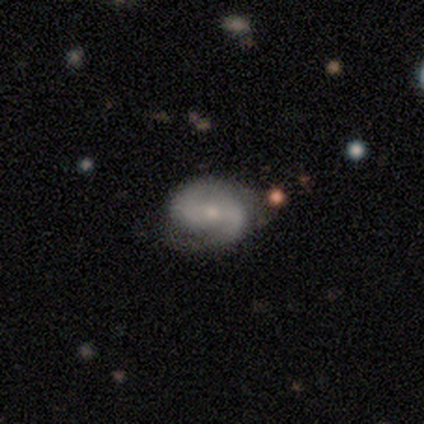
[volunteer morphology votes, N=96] A featured or disk galaxy (75%) with a weak bar (46%), 2 (83%) tight (39%) spiral arms (96%) and a small central bulge (70%).

Vote fractions:
- Smooth or featured? featured or disk: 75% / smooth: 19% / star or artifact: 6%
- Edge-on disk? no: 96% / yes: 4%
- Bar? weak: 46% / no: 39% / strong: 14%
- Spiral arms? yes: 96% / no: 4%
- Spiral winding? tight: 39% / medium: 35% / loose: 26%
- Spiral arm count? 2: 83% / can't tell: 9% / 1: 6% / 4: 2% / 3: 0% / more than 4: 0%
- Bulge size? small: 70% / moderate: 20% / none: 7% / dominant: 3% / large: 0%
- Merging? none: 68% / minor disturbance: 23% / major disturbance: 7% / merger: 2%